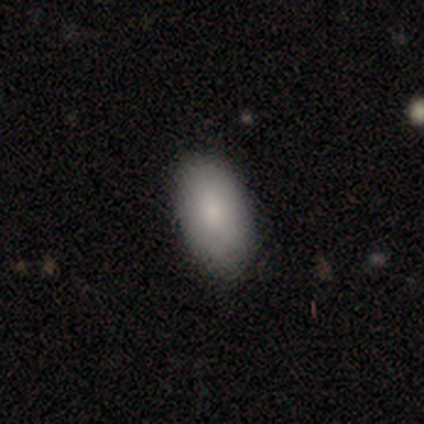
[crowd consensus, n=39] A smooth galaxy with no disk features (79%) that is in between round and cigar-shaped (94%).

Vote fractions:
- Smooth or featured? smooth: 79% / featured or disk: 10% / star or artifact: 10%
- How rounded? in between: 94% / round: 6% / cigar-shaped: 0%
- Merging? none: 80% / minor disturbance: 3% / major disturbance: 3% / merger: 0%